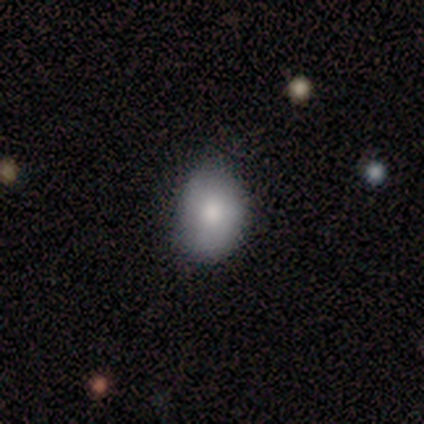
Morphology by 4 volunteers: smooth-or-featured: smooth: 100% | featured or disk: 0% | star or artifact: 0%
  how-rounded: round: 50% (tied) | in between: 50% (tied) | cigar-shaped: 0%
  merging: none: 100% | minor disturbance: 0% | major disturbance: 0% | merger: 0%